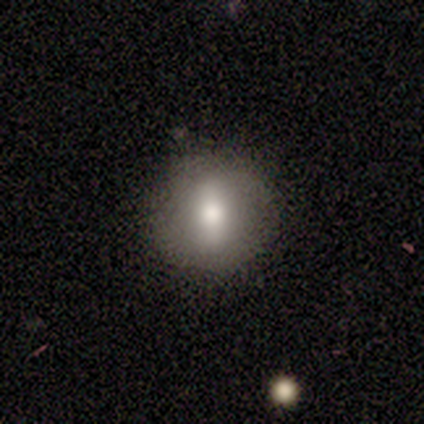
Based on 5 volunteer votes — smooth-or-featured: smooth: 60% | featured or disk: 40% | star or artifact: 0%
  how-rounded: round: 100% | in between: 0% | cigar-shaped: 0%
  merging: none: 80% | minor disturbance: 20% | major disturbance: 0% | merger: 0%